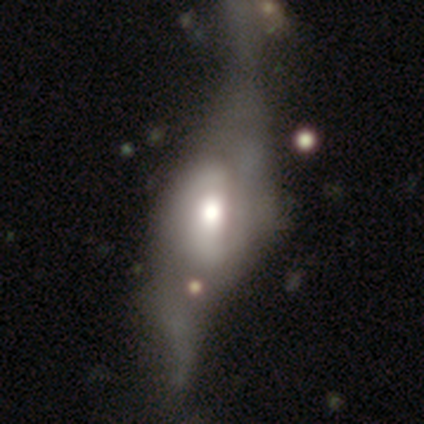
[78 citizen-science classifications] A featured or disk galaxy (74%) with no bar (47%), 2 (53%) loose (50%) spiral arms (76%) and a moderate central bulge (53%). Merging: major disturbance (41%).